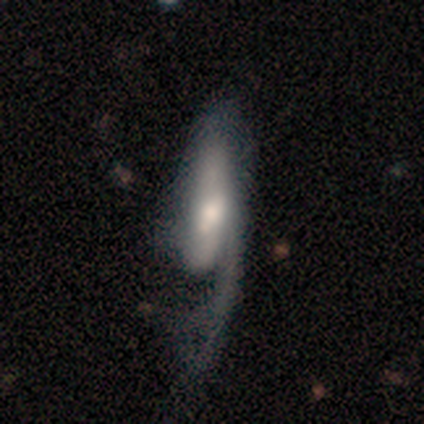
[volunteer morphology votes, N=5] A smooth galaxy with no disk features (40%, tied with featured or disk) that is in between round and cigar-shaped (50%, tied with cigar-shaped). Merging: none (50%, tied with major disturbance).